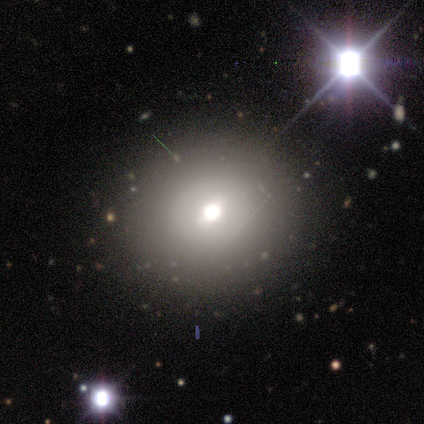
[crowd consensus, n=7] smooth 57%, star or artifact 43%, featured or disk 0%. Down the decision tree: how rounded — round (100%); merging — none (100%).